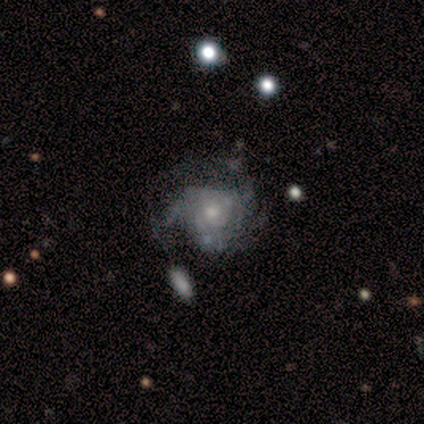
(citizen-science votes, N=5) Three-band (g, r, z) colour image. It shows a smooth galaxy with no disk features (40%, tied with featured or disk) that is round (50%, tied with in between). Merging: major disturbance (50%).